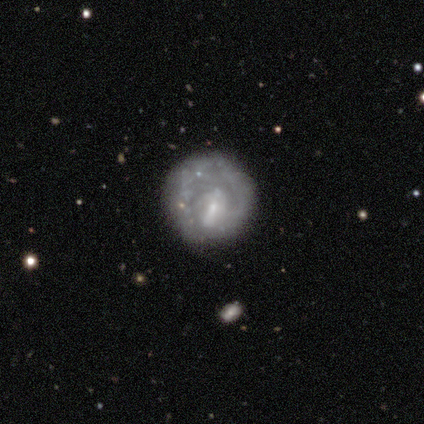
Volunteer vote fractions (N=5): smooth-or-featured: smooth: 60% | featured or disk: 40% | star or artifact: 0%
  how-rounded: round: 67% | in between: 33% | cigar-shaped: 0%
  merging: none: 60% | minor disturbance: 20% | major disturbance: 20% | merger: 0%